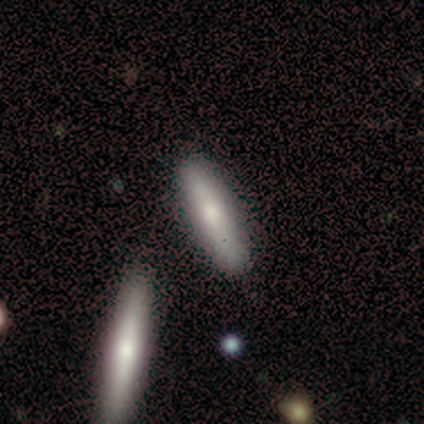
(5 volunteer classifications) Overall: smooth (40%, tied with featured or disk). How rounded: cigar-shaped (100%). Merging: none (75%).